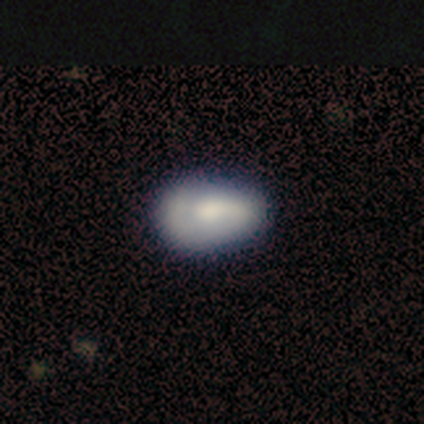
Smooth or featured: featured or disk — 58% (smooth — 33%)
Edge-on disk: no — 100%
Bar: no — 57% (strong — 29%)
Spiral arms: yes — 71% (no — 29%)
Spiral winding: tight — 60% (medium — 40%)
Spiral arm count: 1 — 60% (can't tell — 40%)
Bulge size: moderate — 86% (large — 14%)
Merging: none — 64% (minor disturbance — 18%)